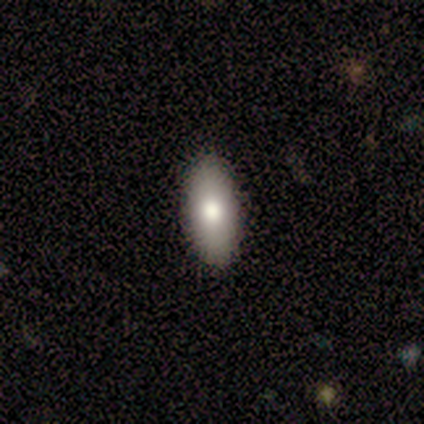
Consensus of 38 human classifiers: Smooth or featured?
  - smooth: 74% *
  - featured or disk: 18%
  - star or artifact: 8%
How rounded?
  - in between: 96% *
  - cigar-shaped: 4%
  - round: 0%
Merging?
  - none: 91% *
  - minor disturbance: 6%
  - major disturbance: 3%
  - merger: 0%